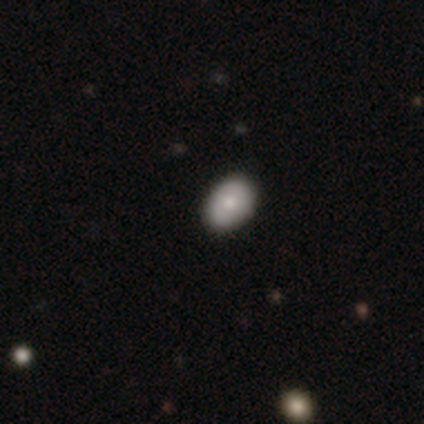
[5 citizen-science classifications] Overall: smooth (100%). How rounded: in between (100%). Merging: none (100%).